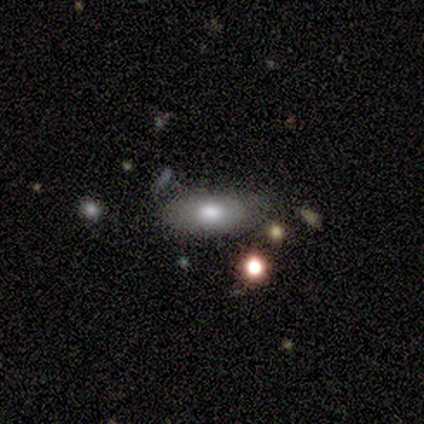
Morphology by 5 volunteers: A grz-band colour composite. It shows a smooth galaxy with no disk features (60%) that is in between round and cigar-shaped (100%). Merging: minor disturbance (60%).